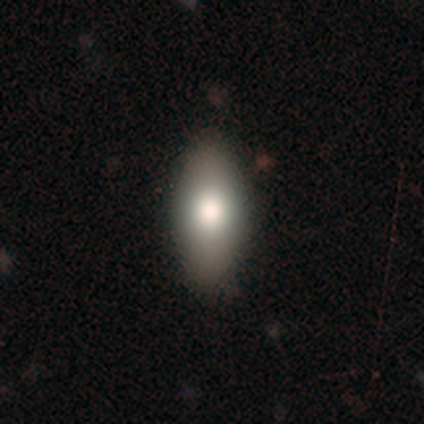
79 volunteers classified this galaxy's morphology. Volunteers were most divided on "merging": none: 43%, minor disturbance: 5%, merger: 1%, major disturbance: 0%. More confident: how rounded — in between (87%); smooth or featured — smooth (86%).